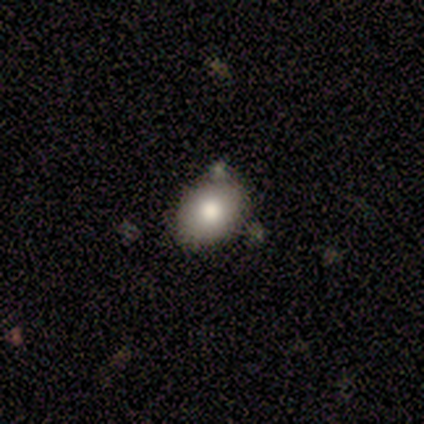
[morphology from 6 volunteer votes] Smooth or featured: smooth — 83% (featured or disk — 17%)
How rounded: in between — 60% (round — 40%)
Merging: none — 100%